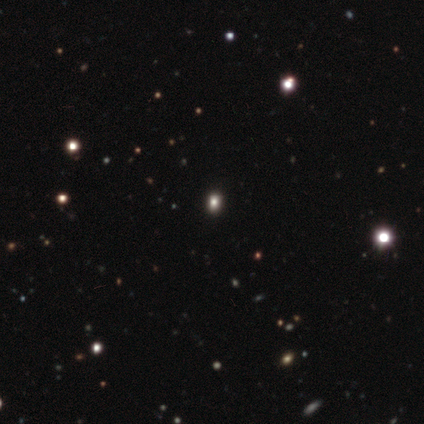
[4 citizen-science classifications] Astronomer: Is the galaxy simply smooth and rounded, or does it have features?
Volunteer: smooth — 50%, tied with star or artifact at 50%.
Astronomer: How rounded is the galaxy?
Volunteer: round — 50%, tied with in between at 50%.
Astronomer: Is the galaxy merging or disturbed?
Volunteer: none — 100%.